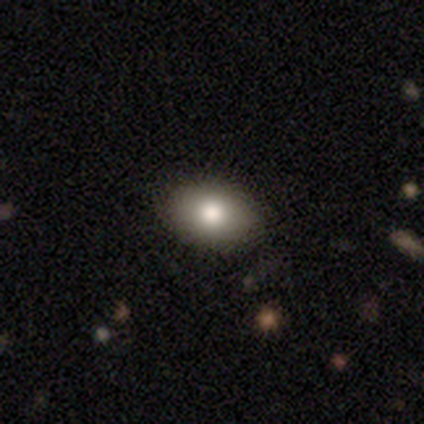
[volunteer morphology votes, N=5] Smooth or featured? smooth (60%)
How rounded? in between (100%)
Merging? none (100%)